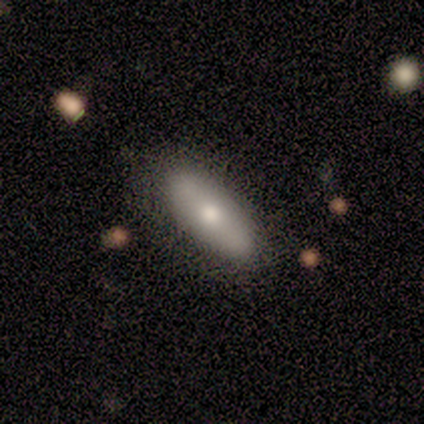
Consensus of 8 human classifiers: Q: Smooth or featured?
A: featured or disk (62%); runner-up: smooth (38%)
Q: Edge-on disk?
A: no (60%); runner-up: yes (40%)
Q: Bar?
A: no (100%)
Q: Spiral arms?
A: no (67%); runner-up: yes (33%)
Q: Bulge size?
A: moderate (100%)
Q: Merging?
A: none (88%); runner-up: minor disturbance (12%)